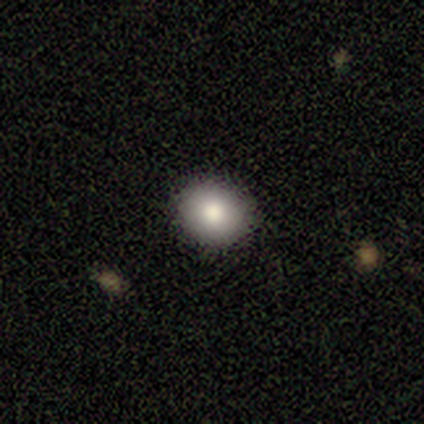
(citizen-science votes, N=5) smooth-or-featured: smooth: 80% | featured or disk: 20% | star or artifact: 0%
  how-rounded: round: 75% | in between: 25% | cigar-shaped: 0%
  merging: none: 100% | minor disturbance: 0% | major disturbance: 0% | merger: 0%